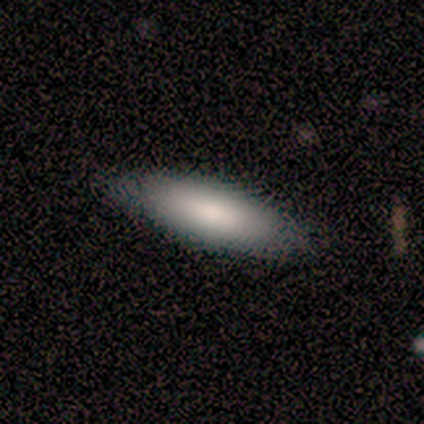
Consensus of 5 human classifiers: Overall: smooth (80%). How rounded: in between (75%). Merging: none (100%).